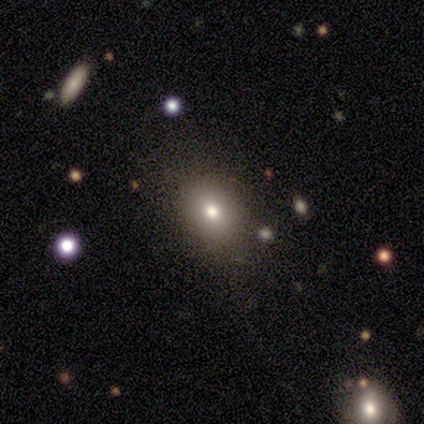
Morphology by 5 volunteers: Q: Smooth or featured?
A: smooth (80%); runner-up: featured or disk (20%)
Q: How rounded?
A: in between (75%); runner-up: round (25%)
Q: Merging?
A: none (80%); runner-up: merger (20%)